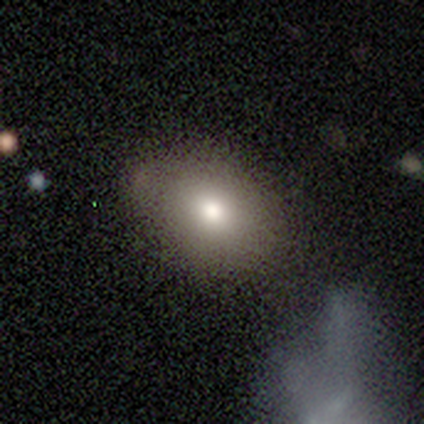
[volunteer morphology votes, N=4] A smooth galaxy with no disk features (100%) that is round (50%, tied with in between).

Vote fractions:
- Smooth or featured? smooth: 100% / featured or disk: 0% / star or artifact: 0%
- How rounded? round: 50% (tied) / in between: 50% (tied) / cigar-shaped: 0%
- Merging? none: 100% / minor disturbance: 0% / major disturbance: 0% / merger: 0%